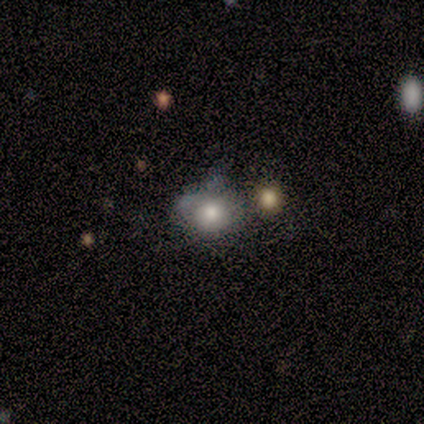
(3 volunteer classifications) Overall: smooth (100%). How rounded: round (67%; in between 33%). Merging: none (33%, tied with minor disturbance and merger).